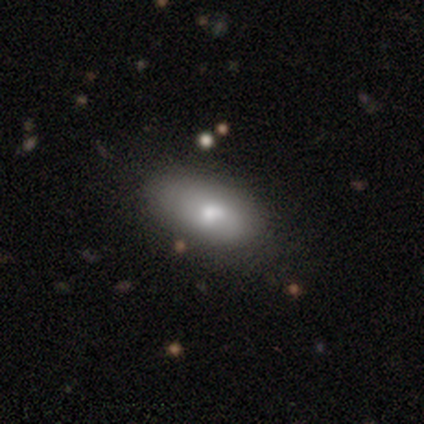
smooth-or-featured: smooth: 73% | featured or disk: 22% | star or artifact: 5%
  how-rounded: in between: 88% | cigar-shaped: 12% | round: 0%
  merging: none: 69% | minor disturbance: 23% | merger: 5% | major disturbance: 3%